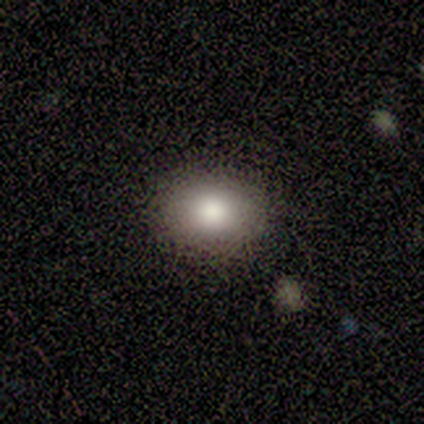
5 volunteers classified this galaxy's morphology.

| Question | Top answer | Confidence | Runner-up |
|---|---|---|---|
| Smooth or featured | smooth | 80% | featured or disk (20%) |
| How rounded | in between | 100% | — |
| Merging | none | 100% | — |